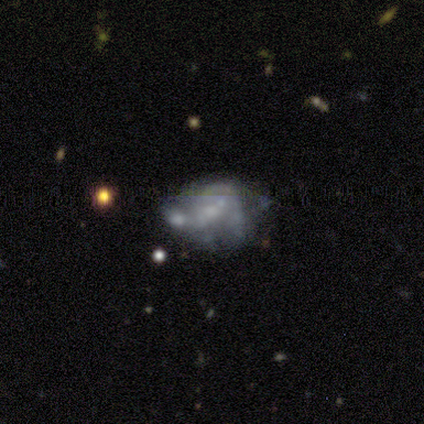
A featured or disk galaxy (67%) with a weak bar (50%, tied with no), medium (100%) spiral arms (75%) and a moderate central bulge (50%, tied with none).

Vote fractions:
- Smooth or featured? featured or disk: 67% / smooth: 33% / star or artifact: 0%
- Edge-on disk? no: 100% / yes: 0%
- Bar? weak: 50% (tied) / no: 50% (tied) / strong: 0%
- Spiral arms? yes: 75% / no: 25%
- Spiral winding? medium: 100% / tight: 0% / loose: 0%
- Spiral arm count? can't tell: 100% / 1: 0% / 2: 0% / 3: 0% / 4: 0% / more than 4: 0%
- Bulge size? moderate: 50% (tied) / none: 50% (tied) / dominant: 0% / large: 0% / small: 0%
- Merging? minor disturbance: 50% / major disturbance: 33% / none: 17% / merger: 0%